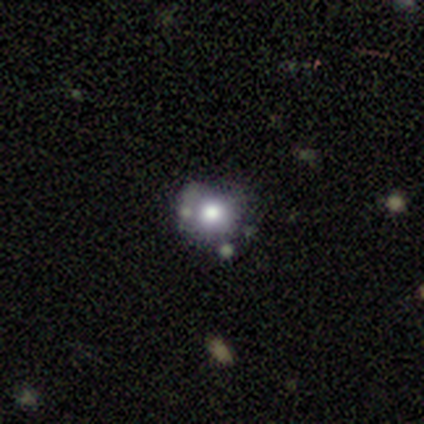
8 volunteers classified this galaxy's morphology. Q: Smooth or featured?
A: smooth (88%); runner-up: star or artifact (12%)
Q: How rounded?
A: round (86%); runner-up: in between (14%)
Q: Merging?
A: none (86%); runner-up: minor disturbance (14%)